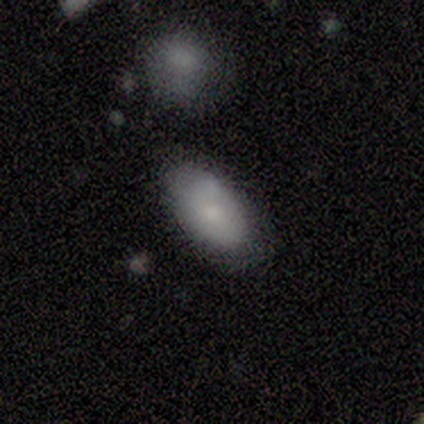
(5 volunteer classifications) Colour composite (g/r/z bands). It shows a smooth galaxy with no disk features (80%) that is in between round and cigar-shaped (100%). Merging: none (100%).